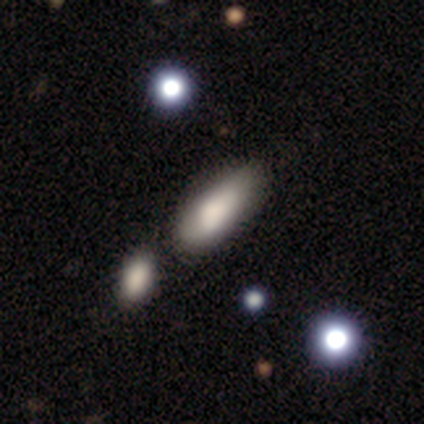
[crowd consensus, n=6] This is clearly a smooth galaxy (83%). How rounded: clearly in between (80%). Merging: likely minor disturbance (60%).